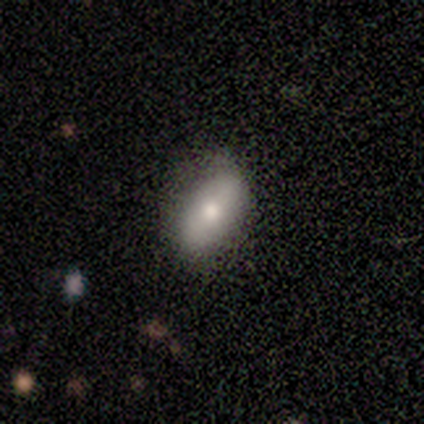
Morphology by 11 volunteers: This is likely a smooth galaxy (73%). How rounded: clearly in between (88%). Merging: clearly none (100%).